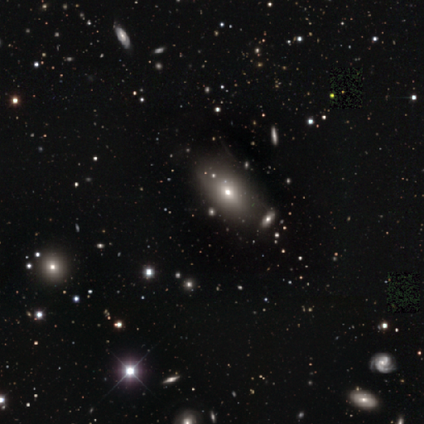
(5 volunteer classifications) A featured or disk galaxy (40%, tied with star or artifact) viewed edge-on (50%, tied with no) with a rounded central bulge (100%). Merging: none (100%).